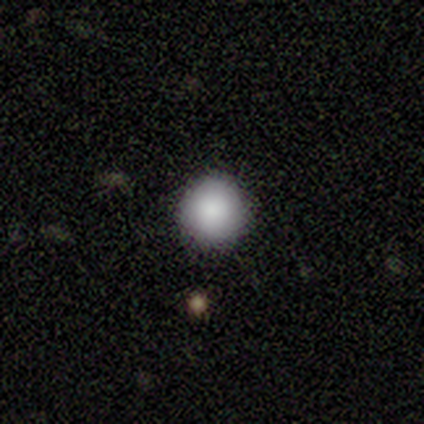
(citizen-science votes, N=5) Morphology: type=smooth (80%); roundness=round (100%); merging=none (100%).